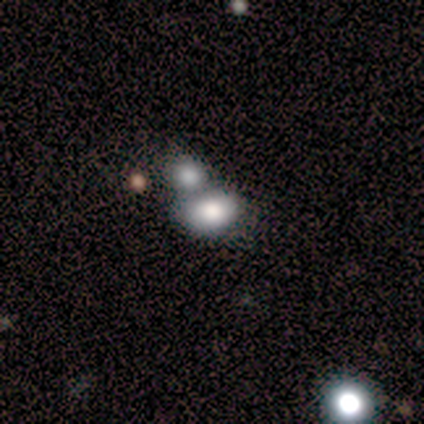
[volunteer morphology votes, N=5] Smooth or featured? 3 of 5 (60%) said smooth. How rounded? 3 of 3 (100%) said in between. Merging? 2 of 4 (50%) said merger.